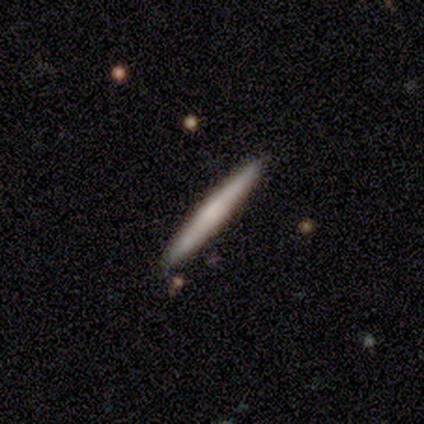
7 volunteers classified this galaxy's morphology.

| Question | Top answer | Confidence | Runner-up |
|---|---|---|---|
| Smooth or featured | smooth | 57% | featured or disk (43%) |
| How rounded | cigar-shaped | 75% | in between (25%) |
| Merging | none | 100% | — |